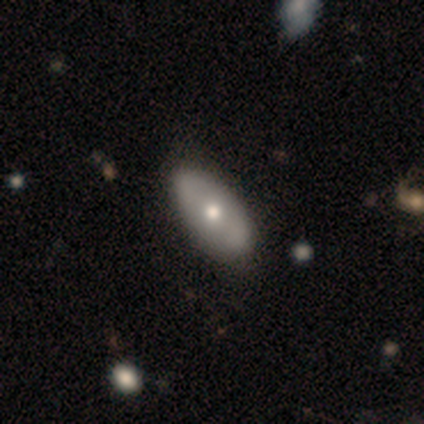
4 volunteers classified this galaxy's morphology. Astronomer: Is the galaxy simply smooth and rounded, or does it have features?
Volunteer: smooth — 75%.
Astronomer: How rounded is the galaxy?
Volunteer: in between — 100%.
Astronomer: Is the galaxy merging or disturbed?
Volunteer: none — 100%.